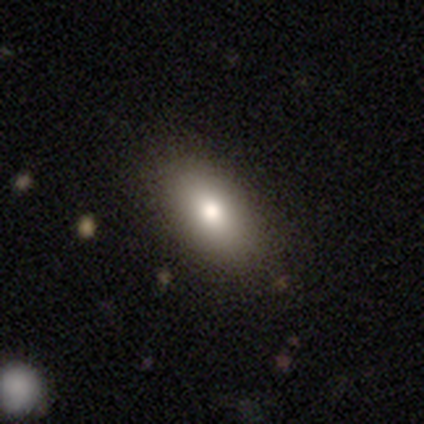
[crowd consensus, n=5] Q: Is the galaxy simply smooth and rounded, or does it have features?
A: smooth — 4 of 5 (80%).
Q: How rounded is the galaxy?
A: in between — 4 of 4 (100%).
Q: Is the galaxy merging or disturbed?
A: none — 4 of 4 (100%).